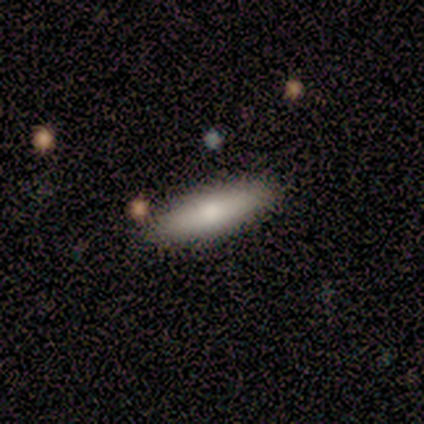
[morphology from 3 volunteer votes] Smooth or featured?
  - smooth: 67% *
  - featured or disk: 33%
  - star or artifact: 0%
How rounded?
  - in between: 50% * (tied)
  - cigar-shaped: 50% * (tied)
  - round: 0%
Merging?
  - none: 100% *
  - minor disturbance: 0%
  - major disturbance: 0%
  - merger: 0%